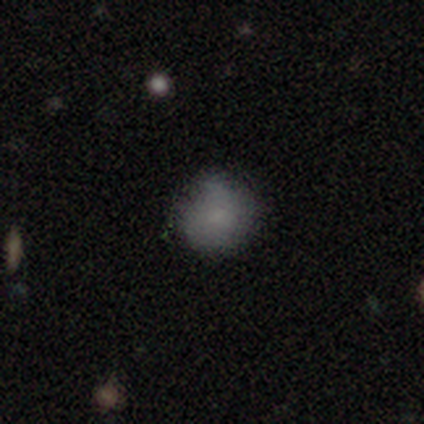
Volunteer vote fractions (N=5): A smooth galaxy with no disk features (100%) that is round (80%). Merging: none (60%).